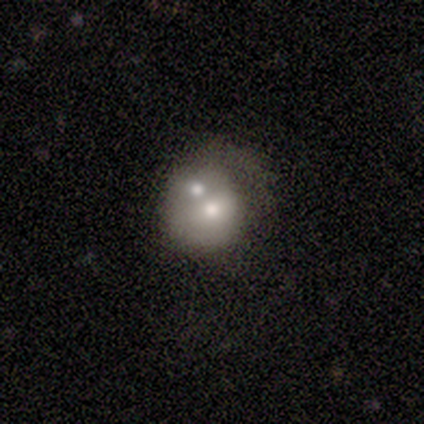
A smooth galaxy with no disk features (60%) that is round (100%).

Vote fractions:
- Smooth or featured? smooth: 60% / featured or disk: 40% / star or artifact: 0%
- How rounded? round: 100% / in between: 0% / cigar-shaped: 0%
- Merging? none: 40% (tied) / merger: 40% (tied) / minor disturbance: 20% / major disturbance: 0%